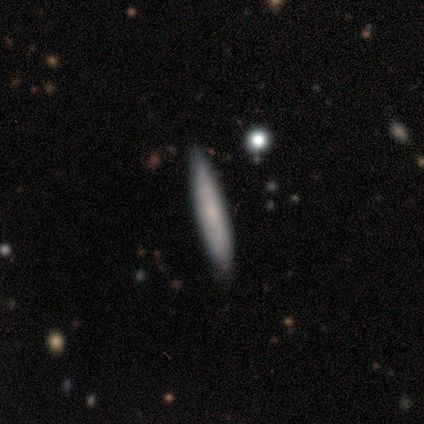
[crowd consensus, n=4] Smooth or featured? smooth (75%)
How rounded? cigar-shaped (100%)
Merging? none (100%)